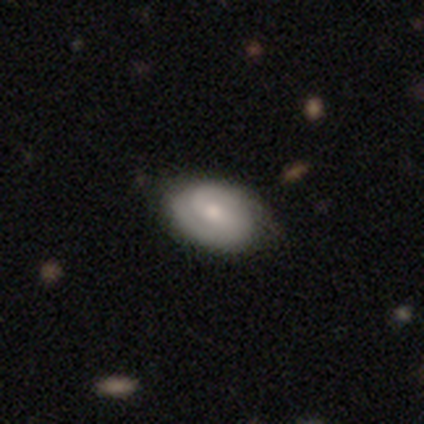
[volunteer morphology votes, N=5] smooth-or-featured: featured or disk: 100% | smooth: 0% | star or artifact: 0%
  disk-edge-on: no: 100% | yes: 0%
    bar: no: 60% | weak: 40% | strong: 0%
    has-spiral-arms: yes: 100% | no: 0%
      spiral-winding: tight: 100% | medium: 0% | loose: 0%
      spiral-arm-count: 2: 80% | can't tell: 20% | 1: 0% | 3: 0% | 4: 0% | more than 4: 0%
    bulge-size: small: 100% | dominant: 0% | large: 0% | moderate: 0% | none: 0%
  merging: none: 100% | minor disturbance: 0% | major disturbance: 0% | merger: 0%